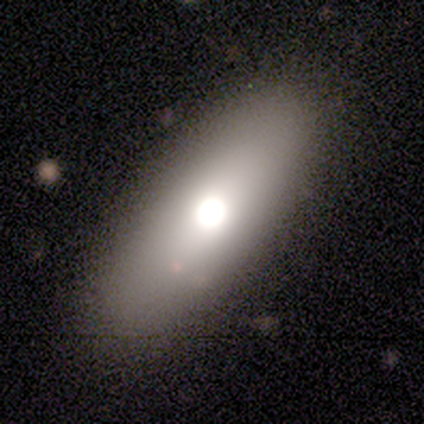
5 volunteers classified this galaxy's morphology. smooth-or-featured: smooth: 100% | featured or disk: 0% | star or artifact: 0%
  how-rounded: in between: 80% | cigar-shaped: 20% | round: 0%
  merging: none: 100% | minor disturbance: 0% | major disturbance: 0% | merger: 0%